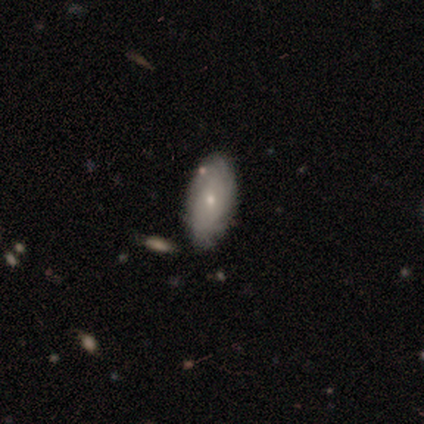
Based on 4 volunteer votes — Morphology: type=smooth (75%); roundness=in between (100%); merging=none (50%, tied with minor disturbance).